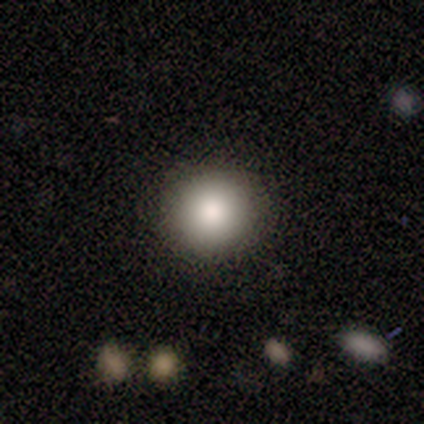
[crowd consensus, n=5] A smooth galaxy with no disk features (100%) that is round (100%). Merging: none (100%).